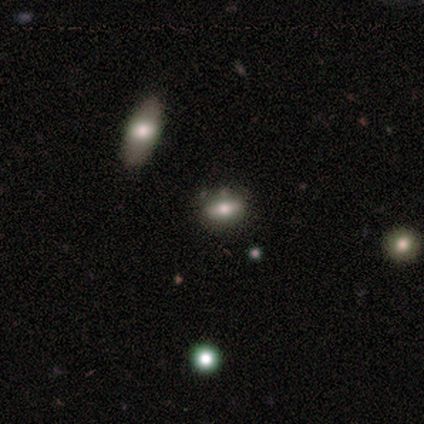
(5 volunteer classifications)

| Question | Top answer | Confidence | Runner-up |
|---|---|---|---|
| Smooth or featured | smooth | 40% | tied: star or artifact (40%) |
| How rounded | in between | 100% | — |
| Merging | none | 100% | — |